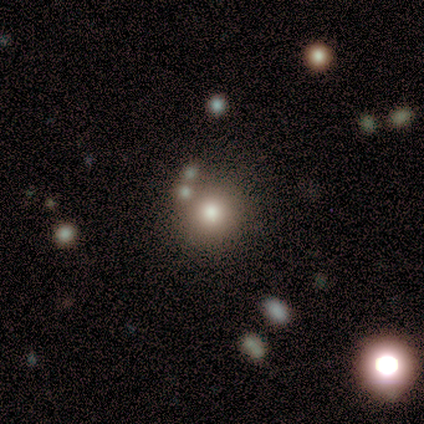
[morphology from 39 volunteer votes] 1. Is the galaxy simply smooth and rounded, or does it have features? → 54% smooth, 33% star or artifact, 13% featured or disk.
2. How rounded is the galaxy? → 90% round, 10% in between, 0% cigar-shaped.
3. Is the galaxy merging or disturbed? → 62% none, 15% minor disturbance, 15% merger, 8% major disturbance.